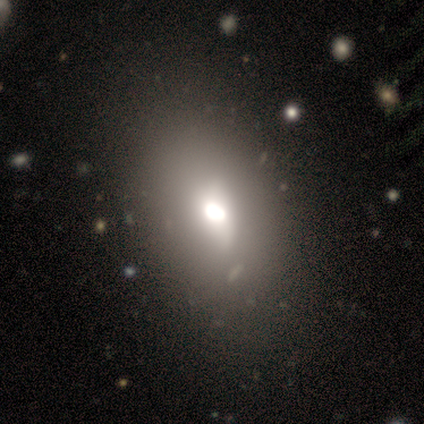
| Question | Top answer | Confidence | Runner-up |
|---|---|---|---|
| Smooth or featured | smooth | 40% | tied: featured or disk (40%) |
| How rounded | in between | 100% | — |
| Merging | none | 50% | minor disturbance (25%) |